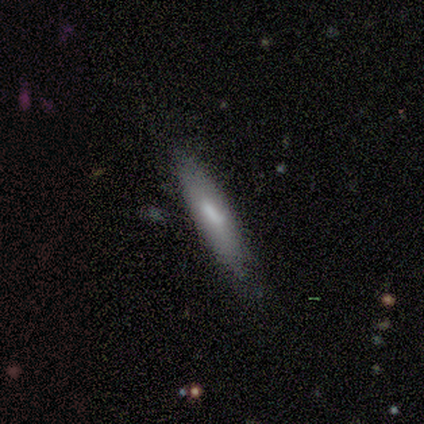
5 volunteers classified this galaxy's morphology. smooth-or-featured: smooth: 80% | featured or disk: 20% | star or artifact: 0%
  how-rounded: cigar-shaped: 75% | in between: 25% | round: 0%
  merging: none: 60% | minor disturbance: 40% | major disturbance: 0% | merger: 0%